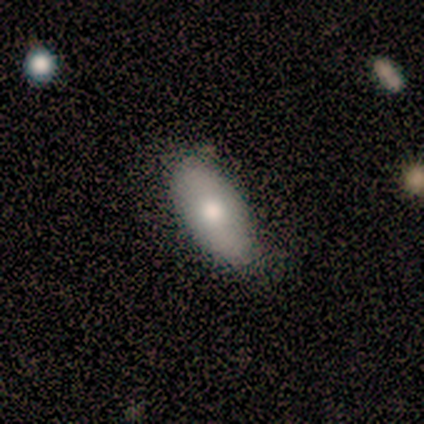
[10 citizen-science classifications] A smooth galaxy with no disk features (90%) that is in between round and cigar-shaped (100%). Merging: none (50%, tied with minor disturbance).